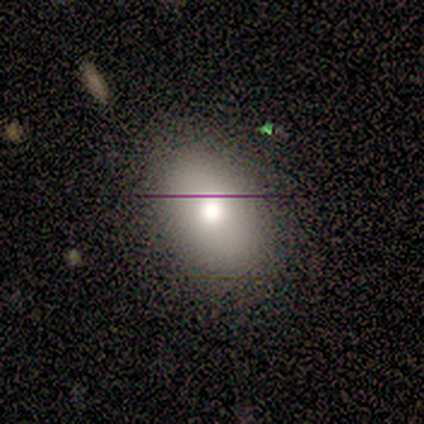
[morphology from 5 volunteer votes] Smooth or featured: smooth — 80% (featured or disk — 20%)
How rounded: in between — 100%
Merging: none — 100%